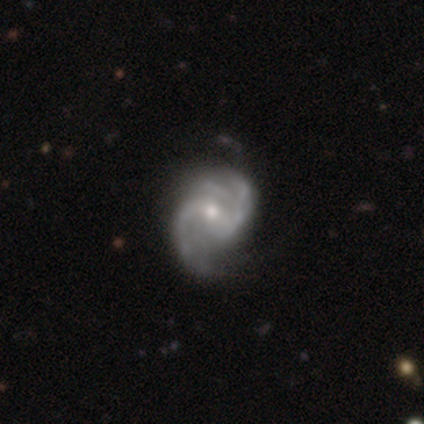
Smooth or featured? featured or disk (91%)
Edge-on disk? no (96%)
Bar? weak (45%)
Spiral arms? yes (98%)
Spiral winding? medium (66%)
Spiral arm count? 2 (76%)
Bulge size? small (55%)
Merging? none (57%)